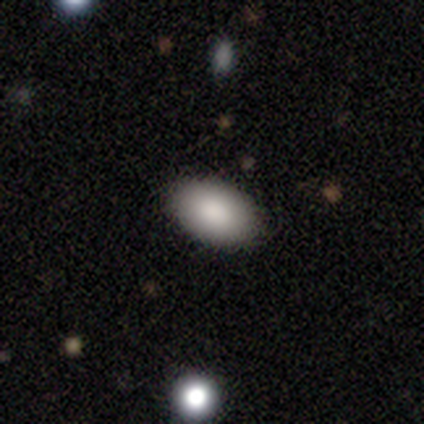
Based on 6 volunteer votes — smooth 67%, featured or disk 33%, star or artifact 0%. Down the decision tree: how rounded — in between (100%); merging — none (100%).